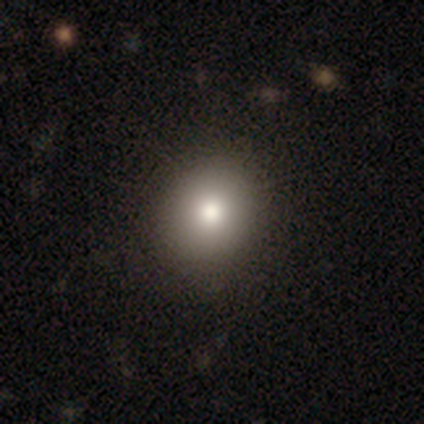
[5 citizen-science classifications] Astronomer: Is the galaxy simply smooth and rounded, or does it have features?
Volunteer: smooth — 80%.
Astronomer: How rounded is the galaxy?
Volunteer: round — 75%.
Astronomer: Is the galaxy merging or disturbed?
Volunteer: none — 100%.